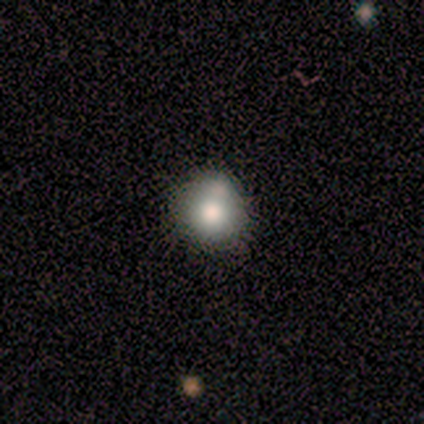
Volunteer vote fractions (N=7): Smooth or featured? 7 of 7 (100%) said smooth. How rounded? 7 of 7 (100%) said round. Merging? 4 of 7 (57%) said none.